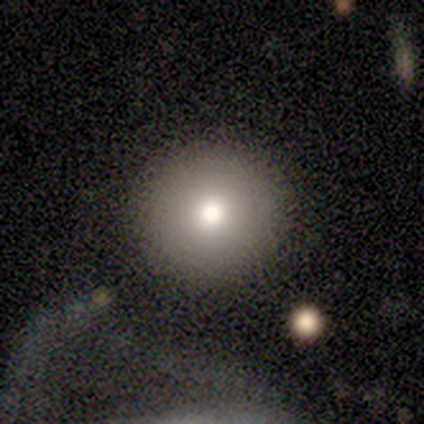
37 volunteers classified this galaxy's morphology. This appears to be a smooth galaxy with no disk features (86%) that is round (97%). Merging: none (91%).